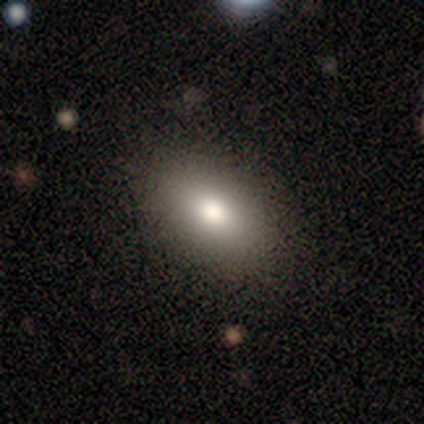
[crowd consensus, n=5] smooth 100%, featured or disk 0%, star or artifact 0%. Down the decision tree: how rounded — in between (80%); merging — none (100%).